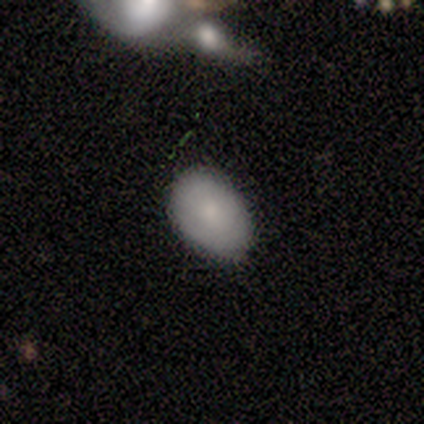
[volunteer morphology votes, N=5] A smooth galaxy with no disk features (80%) that is in between round and cigar-shaped (75%).

Vote fractions:
- Smooth or featured? smooth: 80% / featured or disk: 20% / star or artifact: 0%
- How rounded? in between: 75% / round: 25% / cigar-shaped: 0%
- Merging? none: 80% / minor disturbance: 20% / major disturbance: 0% / merger: 0%